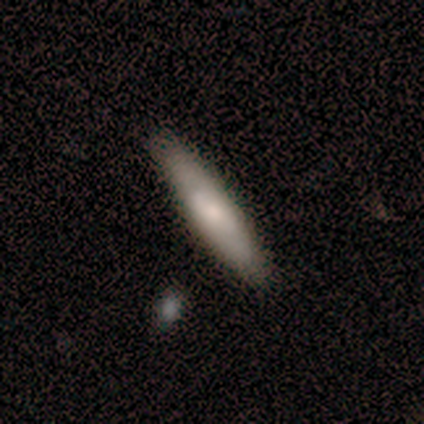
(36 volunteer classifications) smooth-or-featured: smooth: 64% | featured or disk: 33% | star or artifact: 3%
  how-rounded: cigar-shaped: 83% | in between: 17% | round: 0%
  merging: none: 86% | minor disturbance: 9% | major disturbance: 3% | merger: 3%